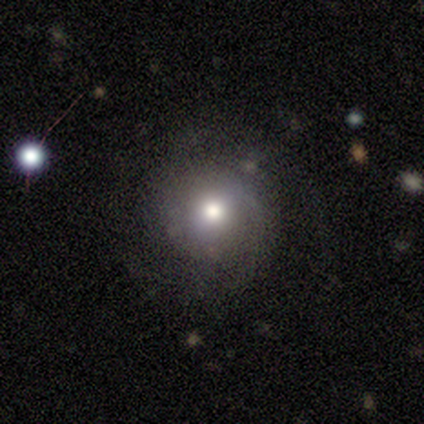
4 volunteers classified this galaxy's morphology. Overall: smooth (50%, tied with featured or disk). How rounded: round (100%). Merging: none (50%; minor disturbance 25%).